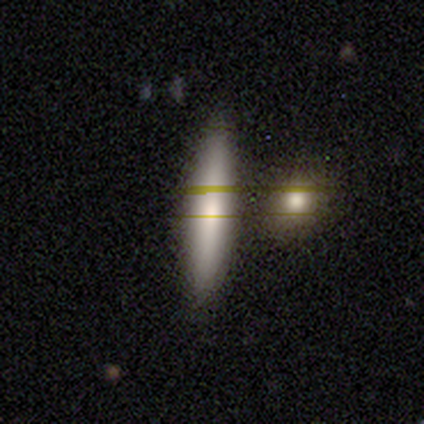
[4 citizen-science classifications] A smooth galaxy with no disk features (100%) that is cigar-shaped (100%).

Vote fractions:
- Smooth or featured? smooth: 100% / featured or disk: 0% / star or artifact: 0%
- How rounded? cigar-shaped: 100% / round: 0% / in between: 0%
- Merging? none: 100% / minor disturbance: 0% / major disturbance: 0% / merger: 0%